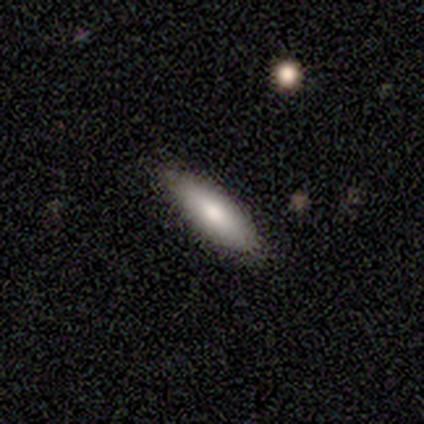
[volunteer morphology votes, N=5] Overall: smooth (100%). How rounded: in between (100%). Merging: none (100%).